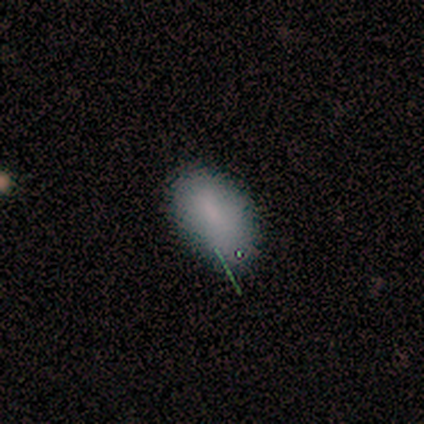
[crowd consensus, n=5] smooth 100%, featured or disk 0%, star or artifact 0%. Down the decision tree: how rounded — in between (100%); merging — none (80%).